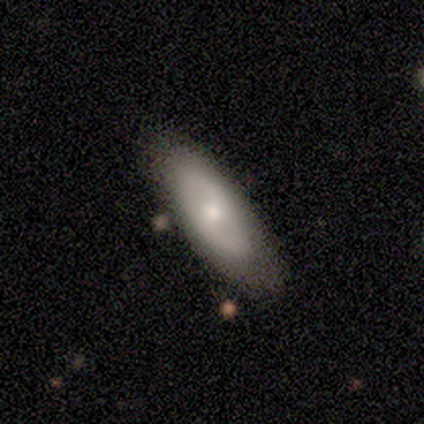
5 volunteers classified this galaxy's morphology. Volunteers were most divided on "smooth or featured": featured or disk: 60%, smooth: 40%, star or artifact: 0%. More confident: edge-on disk — no (100%); merging — none (80%); bar — no (67%); spiral arms — no (67%); bulge size — small (67%).